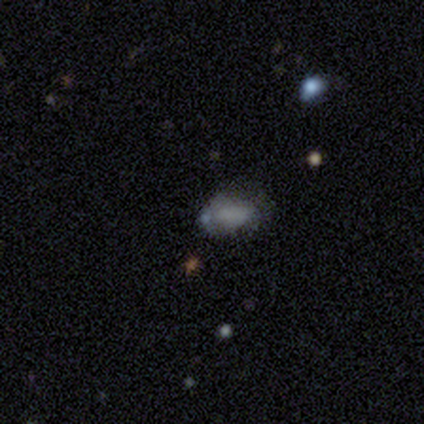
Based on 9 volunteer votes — Overall: smooth (44%, tied with featured or disk). How rounded: in between (100%). Merging: none (50%; minor disturbance 25%).